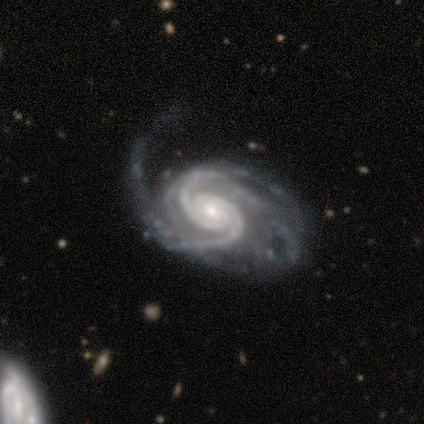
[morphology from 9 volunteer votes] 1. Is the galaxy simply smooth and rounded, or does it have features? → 100% featured or disk, 0% smooth, 0% star or artifact.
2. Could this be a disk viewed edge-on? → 100% no, 0% yes.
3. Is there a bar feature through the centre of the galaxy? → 78% no, 11% strong, 11% weak.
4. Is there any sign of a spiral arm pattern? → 100% yes, 0% no.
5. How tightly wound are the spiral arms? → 78% tight, 22% medium, 0% loose.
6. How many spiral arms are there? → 56% 2, 33% 3, 11% 4, 0% 1, 0% more than 4, 0% can't tell.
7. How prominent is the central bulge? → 56% small, 33% moderate, 11% none, 0% dominant, 0% large.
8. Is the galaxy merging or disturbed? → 44% major disturbance, 33% minor disturbance, 22% none, 0% merger.